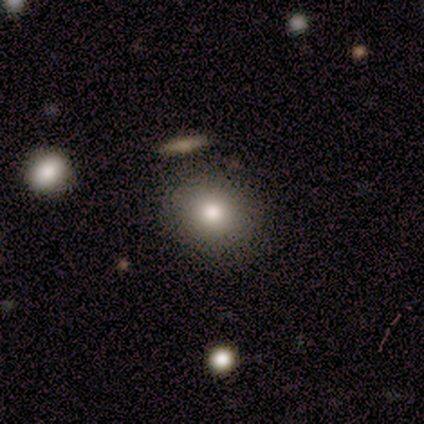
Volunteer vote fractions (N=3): Overall: smooth (100%). How rounded: round (100%). Merging: none (100%).